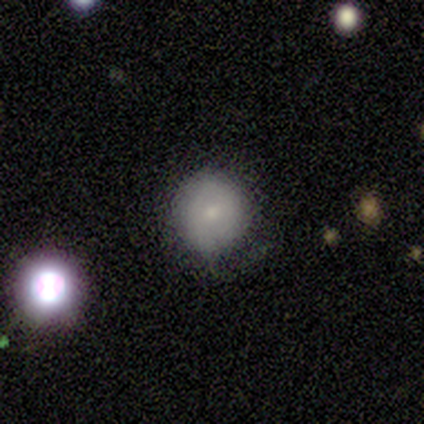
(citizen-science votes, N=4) smooth 50% (tied), featured or disk 50% (tied), star or artifact 0%. Down the decision tree: how rounded — round (100%); merging — none (50%, tied with minor disturbance).